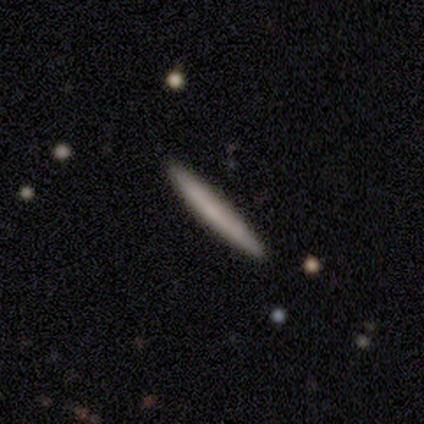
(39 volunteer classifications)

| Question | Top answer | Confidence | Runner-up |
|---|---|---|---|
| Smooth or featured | smooth | 62% | featured or disk (36%) |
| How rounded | cigar-shaped | 100% | — |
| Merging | none | 92% | major disturbance (5%) |